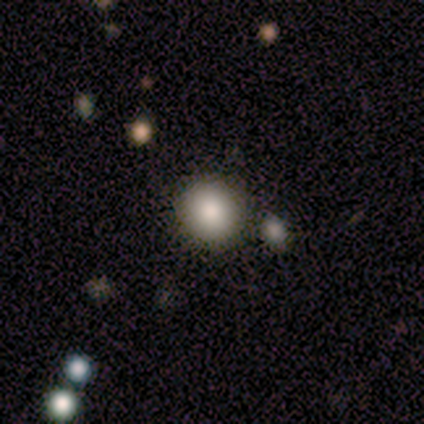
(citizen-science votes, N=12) This is clearly a smooth galaxy (83%). How rounded: clearly round (80%). Merging: clearly none (100%).